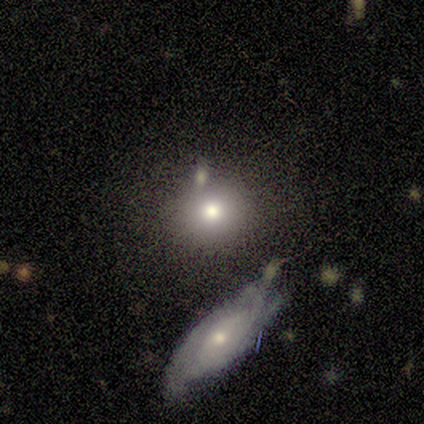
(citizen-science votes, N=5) smooth 80%, featured or disk 20%, star or artifact 0%. Down the decision tree: how rounded — round (75%); merging — merger (60%).